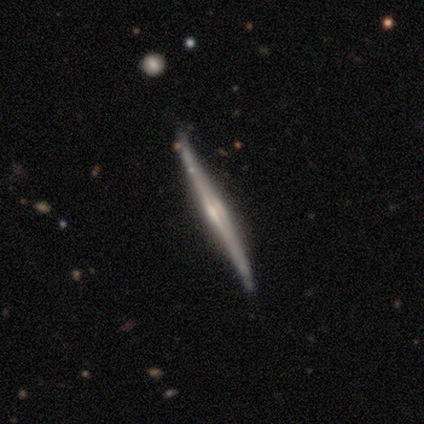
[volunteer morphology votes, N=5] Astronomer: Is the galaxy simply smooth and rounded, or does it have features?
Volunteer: featured or disk — 100%.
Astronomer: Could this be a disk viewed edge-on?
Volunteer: yes — 100%.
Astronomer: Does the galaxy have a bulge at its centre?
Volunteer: none — 40%, tied with rounded at 40%.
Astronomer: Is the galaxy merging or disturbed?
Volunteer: none — 100%.